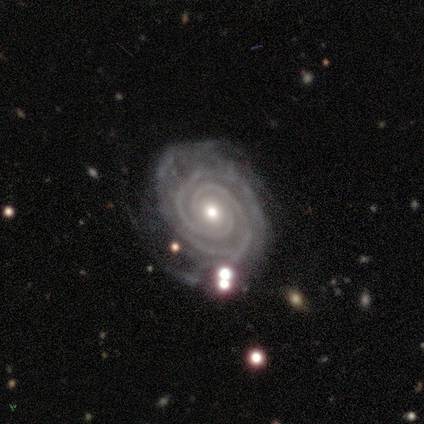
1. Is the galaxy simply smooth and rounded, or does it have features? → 82% featured or disk, 12% star or artifact, 5% smooth.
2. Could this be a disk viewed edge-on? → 100% no, 0% yes.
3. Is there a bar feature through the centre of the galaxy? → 76% no, 15% strong, 9% weak.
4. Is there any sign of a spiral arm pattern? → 100% yes, 0% no.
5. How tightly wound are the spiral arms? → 88% tight, 12% medium, 0% loose.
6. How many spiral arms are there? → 33% 2 (tied), 33% 3 (tied), 12% 4, 12% more than 4, 9% can't tell, 0% 1.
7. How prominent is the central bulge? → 64% moderate, 36% small, 0% dominant, 0% large, 0% none.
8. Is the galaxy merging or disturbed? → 69% none, 17% minor disturbance, 14% major disturbance, 0% merger.